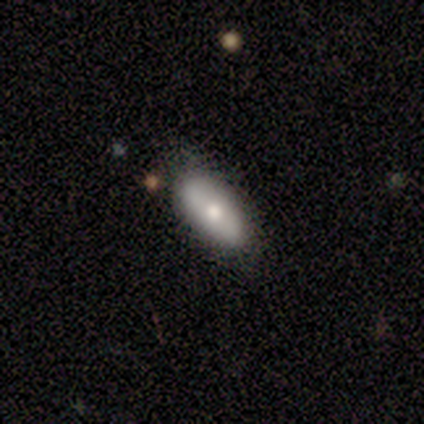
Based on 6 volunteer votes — Smooth or featured?
  - smooth: 67% *
  - featured or disk: 33%
  - star or artifact: 0%
How rounded?
  - in between: 75% *
  - cigar-shaped: 25%
  - round: 0%
Merging?
  - none: 50% * (tied)
  - minor disturbance: 50% * (tied)
  - major disturbance: 0%
  - merger: 0%